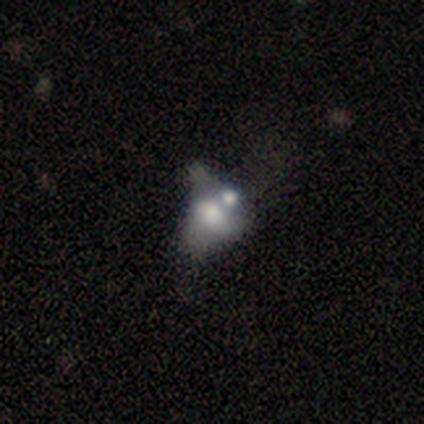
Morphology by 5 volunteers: Q: Smooth or featured?
A: smooth (80%); runner-up: featured or disk (20%)
Q: How rounded?
A: in between (100%)
Q: Merging?
A: major disturbance (40%); tied with: merger (40%)